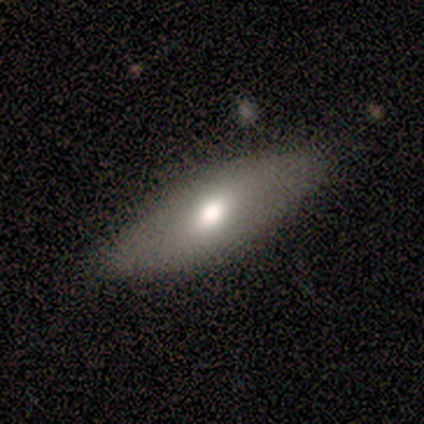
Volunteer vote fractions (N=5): Q: Smooth or featured?
A: smooth (100%)
Q: How rounded?
A: in between (100%)
Q: Merging?
A: none (100%)